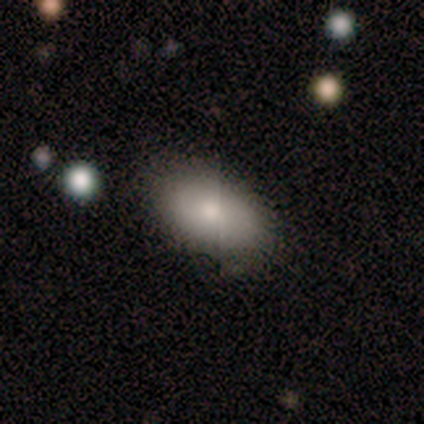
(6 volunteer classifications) Smooth or featured?
  - smooth: 83% *
  - featured or disk: 17%
  - star or artifact: 0%
How rounded?
  - in between: 100% *
  - round: 0%
  - cigar-shaped: 0%
Merging?
  - none: 83% *
  - minor disturbance: 17%
  - major disturbance: 0%
  - merger: 0%